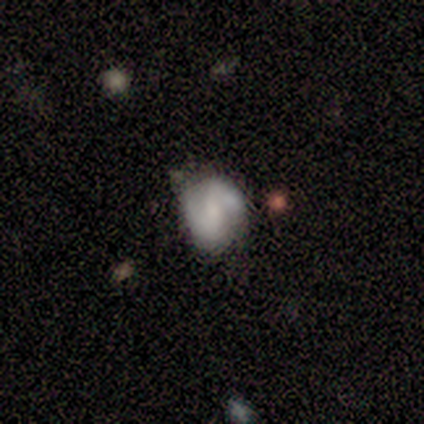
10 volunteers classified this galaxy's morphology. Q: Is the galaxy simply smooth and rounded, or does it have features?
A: featured or disk — 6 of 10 (60%).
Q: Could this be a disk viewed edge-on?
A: no — 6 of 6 (100%).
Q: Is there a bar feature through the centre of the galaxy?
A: strong — 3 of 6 (50%).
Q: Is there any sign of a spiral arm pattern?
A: yes — 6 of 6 (100%).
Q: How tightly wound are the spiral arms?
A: medium — 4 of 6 (67%).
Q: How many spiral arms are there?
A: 2 — 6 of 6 (100%).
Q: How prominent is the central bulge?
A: small — 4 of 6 (67%).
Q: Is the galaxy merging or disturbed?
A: none — 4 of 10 (40%, tied with minor disturbance).